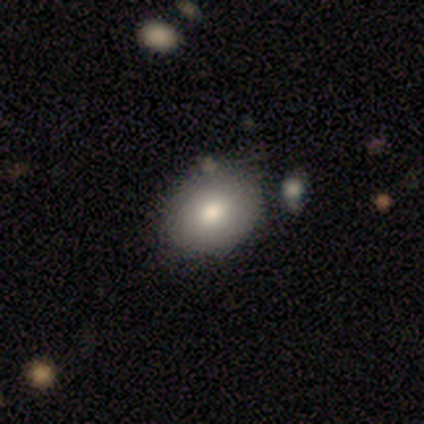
Smooth or featured? smooth (65%)
How rounded? round (50%, tied with in between)
Merging? none (77%)